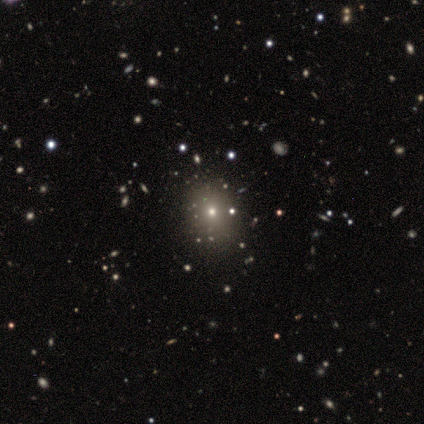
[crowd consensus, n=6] Smooth or featured?
  - smooth: 50% *
  - star or artifact: 33%
  - featured or disk: 17%
How rounded?
  - in between: 67% *
  - round: 33%
  - cigar-shaped: 0%
Merging?
  - none: 100% *
  - minor disturbance: 0%
  - major disturbance: 0%
  - merger: 0%